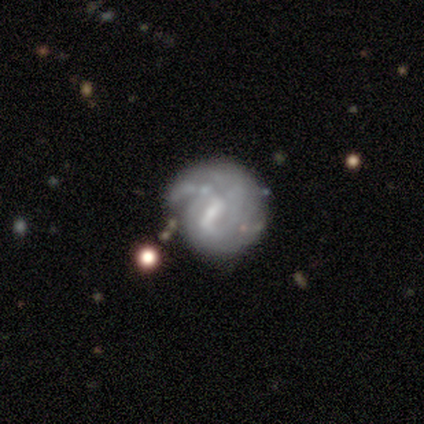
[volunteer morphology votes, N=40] A featured or disk galaxy (70%) with a weak bar (46%), 2 (41%) tight (65%) spiral arms (61%) and a moderate central bulge (54%).

Vote fractions:
- Smooth or featured? featured or disk: 70% / smooth: 22% / star or artifact: 8%
- Edge-on disk? no: 100% / yes: 0%
- Bar? weak: 46% / strong: 36% / no: 18%
- Spiral arms? yes: 61% / no: 39%
- Spiral winding? tight: 65% / loose: 24% / medium: 12%
- Spiral arm count? 2: 41% / 1: 35% / can't tell: 24% / 3: 0% / 4: 0% / more than 4: 0%
- Bulge size? moderate: 54% / small: 29% / none: 18% / dominant: 0% / large: 0%
- Merging? none: 59% / minor disturbance: 27% / major disturbance: 14% / merger: 0%